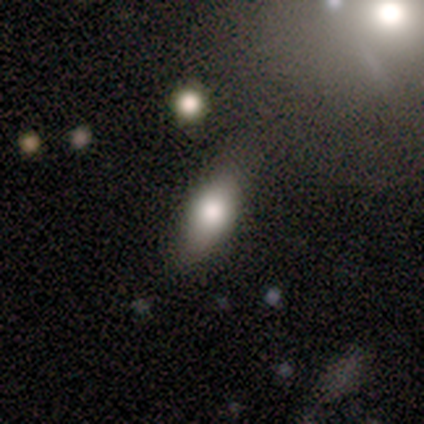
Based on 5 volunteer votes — Smooth or featured? 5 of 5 (100%) said smooth. How rounded? 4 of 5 (80%) said in between. Merging? 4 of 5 (80%) said none.